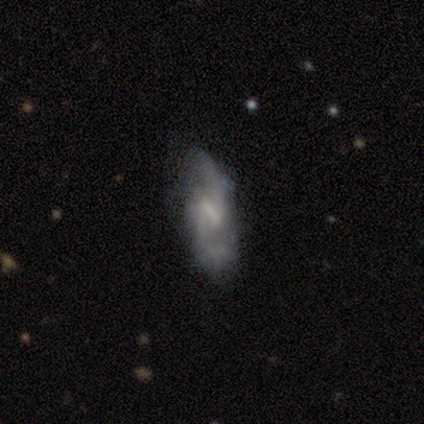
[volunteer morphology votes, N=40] type=featured or disk (80%); edge-on=no (94%); bar=weak (67%); spiral arms=yes (93%); winding=loose (57%); arm count=2 (89%); bulge=none (53%); merging=none (59%).